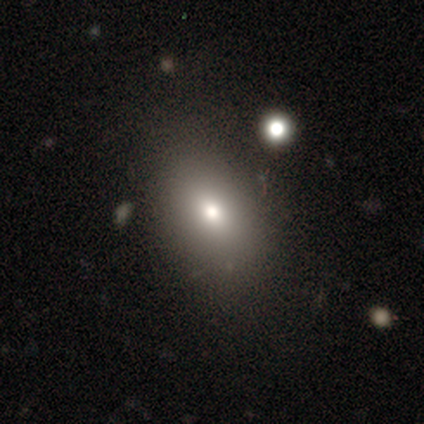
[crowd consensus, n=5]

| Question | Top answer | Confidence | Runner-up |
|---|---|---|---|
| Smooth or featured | smooth | 60% | star or artifact (40%) |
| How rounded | in between | 100% | — |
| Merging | none | 67% | merger (33%) |